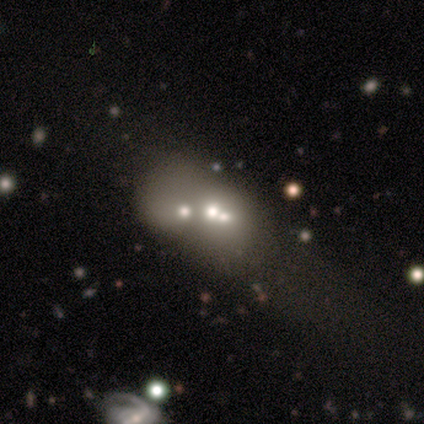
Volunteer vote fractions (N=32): smooth-or-featured: smooth: 41% (tied) | featured or disk: 41% (tied) | star or artifact: 19%
  how-rounded: in between: 69% | round: 31% | cigar-shaped: 0%
  merging: merger: 58% | none: 0% | minor disturbance: 0% | major disturbance: 0%